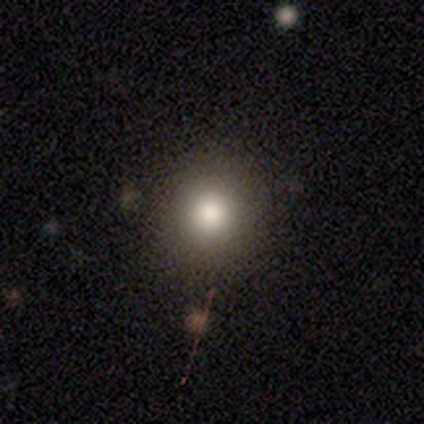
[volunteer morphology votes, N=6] Smooth or featured? smooth (83%)
How rounded? round (100%)
Merging? none (67%)